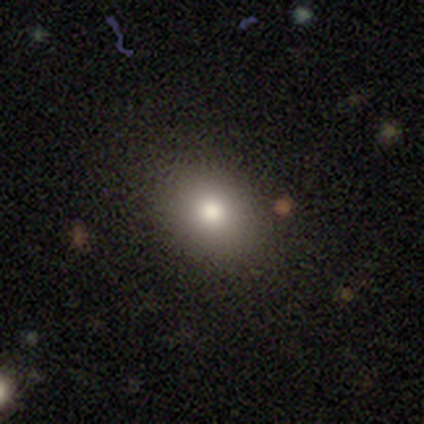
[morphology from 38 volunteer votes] smooth_or_featured: smooth (p=0.71) [alt: featured or disk p=0.16]
how_rounded: in between (p=0.52) [alt: round p=0.48]
merging: none (p=0.88) [alt: minor disturbance p=0.12]